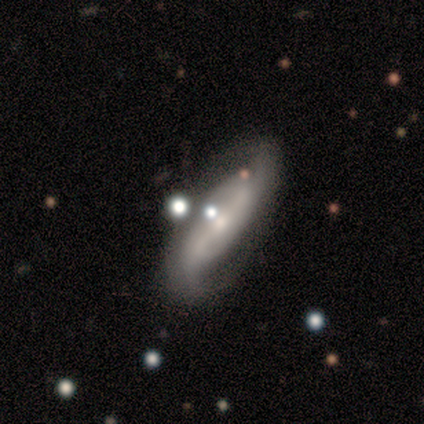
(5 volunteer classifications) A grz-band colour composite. It shows a featured or disk galaxy (100%) with a strong bar (50%, tied with weak), 2 (100%) medium (50%, tied with loose) spiral arms (100%) and a small central bulge (75%). Merging: none (80%).